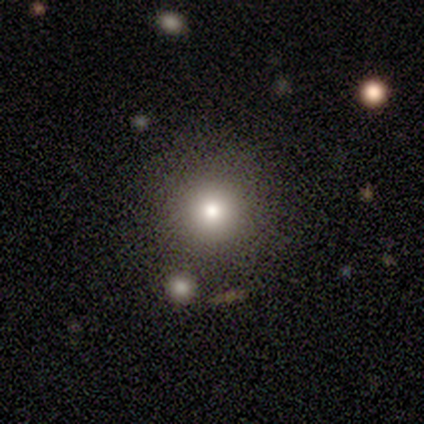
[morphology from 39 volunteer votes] This appears to be a smooth galaxy with no disk features (79%) that is round (97%). Merging: none (71%).